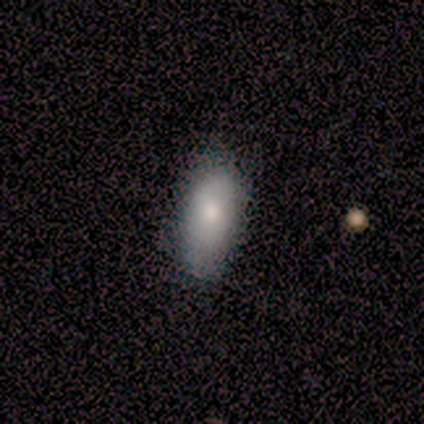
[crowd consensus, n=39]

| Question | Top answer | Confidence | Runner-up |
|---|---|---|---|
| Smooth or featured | smooth | 85% | star or artifact (10%) |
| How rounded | in between | 94% | cigar-shaped (6%) |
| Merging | none | 74% | minor disturbance (23%) |